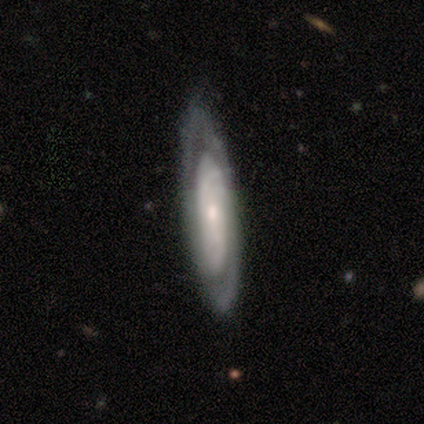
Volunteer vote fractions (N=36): Smooth or featured?
  - featured or disk: 83% *
  - smooth: 14%
  - star or artifact: 3%
Edge-on disk?
  - no: 73% *
  - yes: 27%
Bar?
  - no: 77% *
  - weak: 23%
  - strong: 0%
Spiral arms?
  - yes: 86% *
  - no: 14%
Spiral winding?
  - tight: 74% *
  - medium: 21%
  - loose: 5%
Spiral arm count?
  - 2: 47% * (tied)
  - can't tell: 47% * (tied)
  - 1: 5%
  - 3: 0%
  - 4: 0%
  - more than 4: 0%
Bulge size?
  - small: 50% *
  - moderate: 36%
  - none: 9%
  - large: 5%
  - dominant: 0%
Merging?
  - none: 51% *
  - minor disturbance: 9%
  - major disturbance: 3%
  - merger: 0%